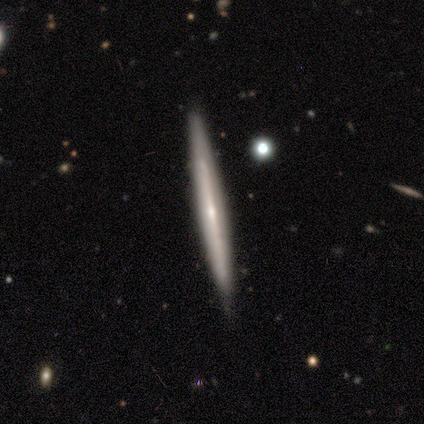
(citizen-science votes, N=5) Overall: featured or disk (60%; smooth 40%). Edge-on disk: yes (100%). Edge-on bulge: rounded (67%; none 33%). Merging: none (100%).